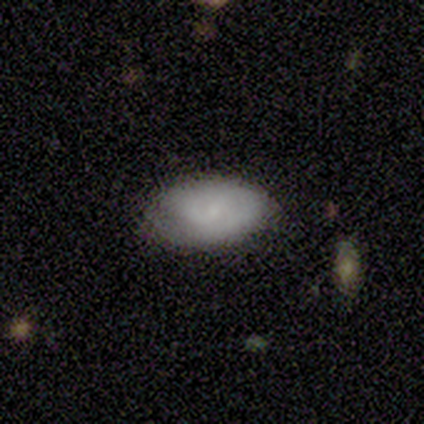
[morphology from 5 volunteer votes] Q: Smooth or featured?
A: smooth (80%); runner-up: star or artifact (20%)
Q: How rounded?
A: in between (75%); runner-up: round (25%)
Q: Merging?
A: none (75%); runner-up: minor disturbance (25%)